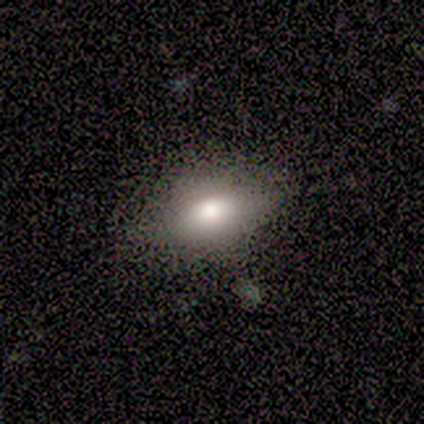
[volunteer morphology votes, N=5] This is clearly a smooth galaxy (100%). How rounded: clearly in between (80%). Merging: clearly none (80%).